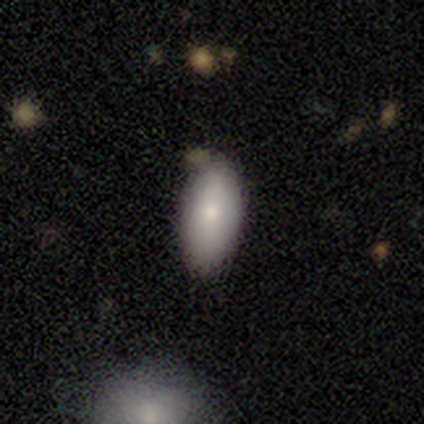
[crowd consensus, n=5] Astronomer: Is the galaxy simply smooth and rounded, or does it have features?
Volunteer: smooth — 80%.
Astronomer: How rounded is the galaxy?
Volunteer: in between — 100%.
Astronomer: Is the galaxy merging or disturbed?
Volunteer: none — 80%.